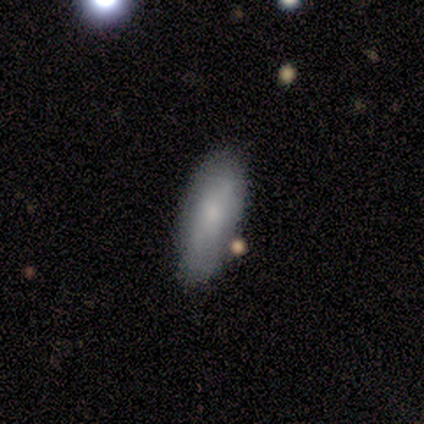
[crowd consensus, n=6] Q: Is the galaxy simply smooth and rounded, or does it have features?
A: smooth — 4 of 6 (67%).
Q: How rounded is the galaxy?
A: in between — 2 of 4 (50%, tied with cigar-shaped).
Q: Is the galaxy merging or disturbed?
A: none — 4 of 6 (67%).